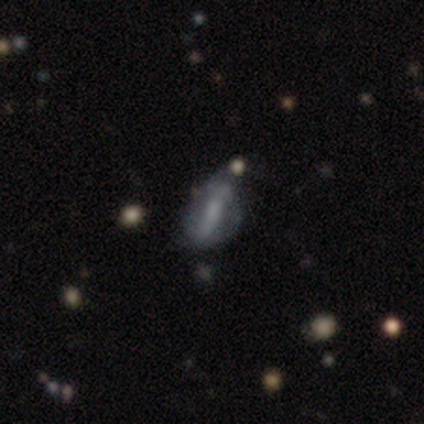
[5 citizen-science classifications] smooth-or-featured: featured or disk: 100% | smooth: 0% | star or artifact: 0%
  disk-edge-on: no: 100% | yes: 0%
    bar: strong: 60% | weak: 40% | no: 0%
    has-spiral-arms: yes: 60% | no: 40%
      spiral-winding: tight: 100% | medium: 0% | loose: 0%
      spiral-arm-count: can't tell: 67% | 2: 33% | 1: 0% | 3: 0% | 4: 0% | more than 4: 0%
    bulge-size: small: 40% (tied) | none: 40% (tied) | moderate: 20% | dominant: 0% | large: 0%
  merging: minor disturbance: 60% | none: 20% | major disturbance: 20% | merger: 0%